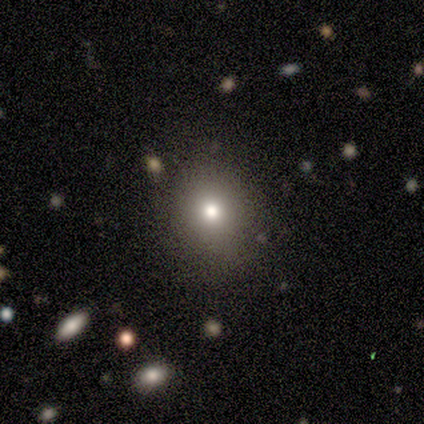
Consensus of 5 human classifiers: smooth 80%, star or artifact 20%, featured or disk 0%. Down the decision tree: how rounded — round (75%); merging — none (100%).